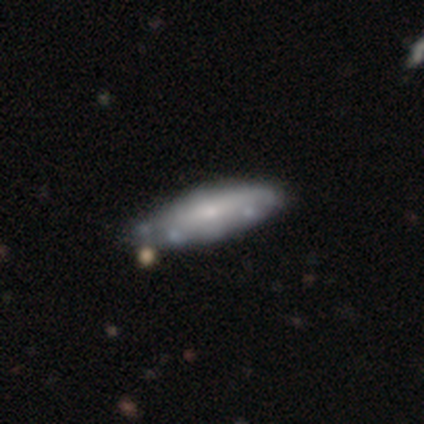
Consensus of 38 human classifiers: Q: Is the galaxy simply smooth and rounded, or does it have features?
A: featured or disk — 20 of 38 (53%).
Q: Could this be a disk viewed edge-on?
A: no — 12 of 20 (60%).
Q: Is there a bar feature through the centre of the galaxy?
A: no — 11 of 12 (92%).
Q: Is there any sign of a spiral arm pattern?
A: no — 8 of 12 (67%).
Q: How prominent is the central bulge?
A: small — 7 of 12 (58%).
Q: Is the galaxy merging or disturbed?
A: none — 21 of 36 (58%).